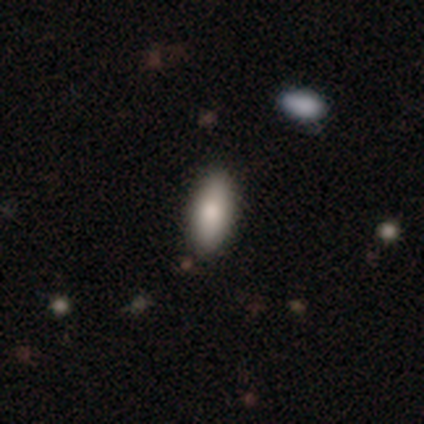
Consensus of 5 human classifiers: Smooth or featured? 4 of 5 (80%) said smooth. How rounded? 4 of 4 (100%) said in between. Merging? 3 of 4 (75%) said none.